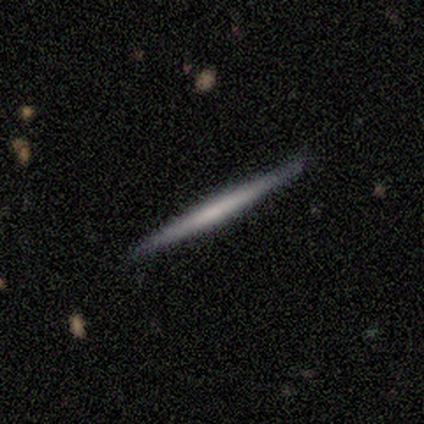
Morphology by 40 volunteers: This is possibly a featured or disk galaxy (55%). It is clearly viewed edge-on (100%). Edge-on bulge: clearly none (82%). Merging: clearly none (97%).